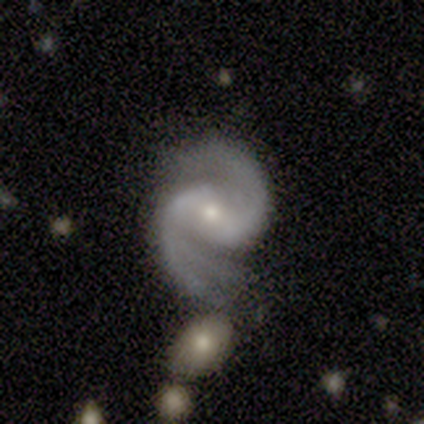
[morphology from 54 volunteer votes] A featured or disk galaxy (96%) with a weak bar (50%), 2 (75%) medium (75%) spiral arms (100%) and a small central bulge (56%). Merging: none (52%).